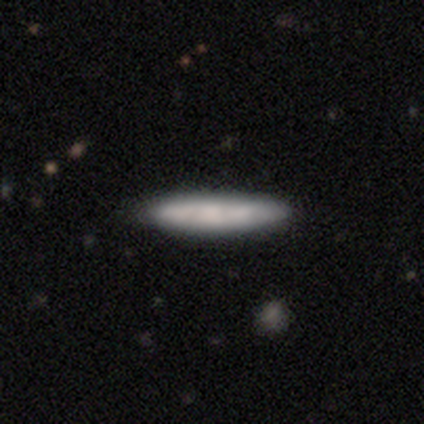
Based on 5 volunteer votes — Smooth or featured? 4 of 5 (80%) said smooth. How rounded? 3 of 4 (75%) said cigar-shaped. Merging? 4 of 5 (80%) said none.